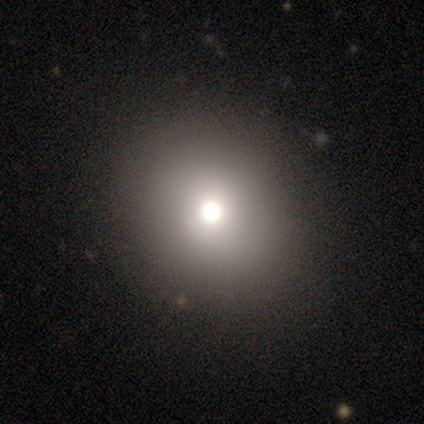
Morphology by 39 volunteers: smooth-or-featured: smooth: 69% | star or artifact: 21% | featured or disk: 10%
  how-rounded: round: 85% | in between: 15% | cigar-shaped: 0%
  merging: none: 42% | minor disturbance: 6% | major disturbance: 3% | merger: 0%